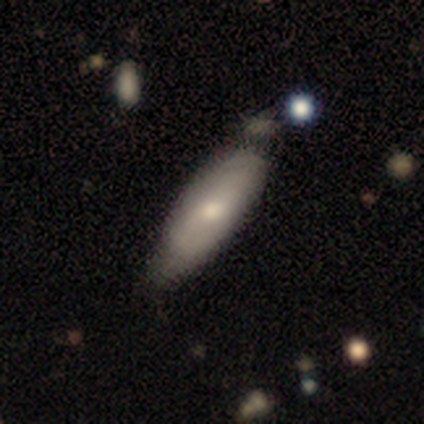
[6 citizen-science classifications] smooth 83%, featured or disk 17%, star or artifact 0%. Down the decision tree: how rounded — in between (40%, tied with cigar-shaped); merging — none (83%).